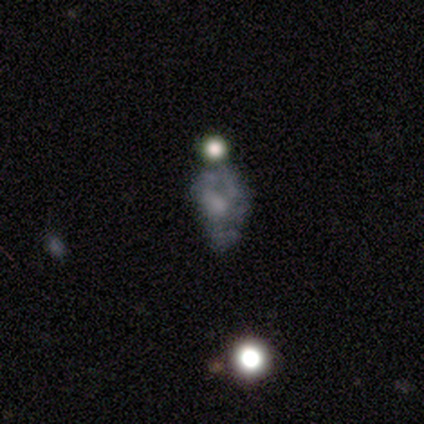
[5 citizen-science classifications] Smooth or featured? featured or disk (60%)
Edge-on disk? no (100%)
Bar? no (100%)
Spiral arms? no (67%)
Bulge size? large (33%, tied with small and none)
Merging? none (40%, tied with minor disturbance)